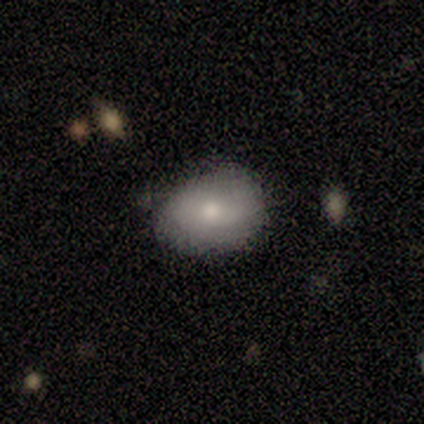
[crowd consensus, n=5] A smooth galaxy with no disk features (80%) that is in between round and cigar-shaped (100%).

Vote fractions:
- Smooth or featured? smooth: 80% / featured or disk: 20% / star or artifact: 0%
- How rounded? in between: 100% / round: 0% / cigar-shaped: 0%
- Merging? none: 60% / minor disturbance: 40% / major disturbance: 0% / merger: 0%